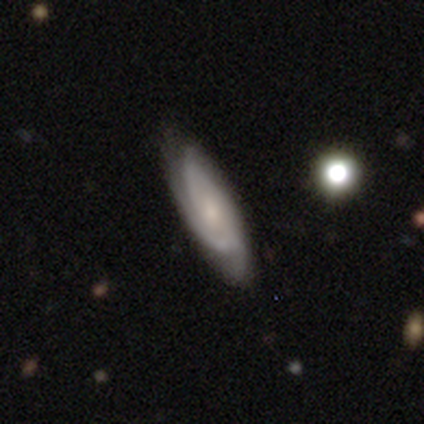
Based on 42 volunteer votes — smooth_or_featured: featured or disk (p=0.79) [alt: smooth p=0.14]
disk_edge_on: no (p=0.88) [alt: yes p=0.12]
bar: no (p=0.66) [alt: weak p=0.31]
has_spiral_arms: yes (p=0.97) [alt: no p=0.03]
spiral_winding: tight (p=0.64) [alt: medium p=0.36]
spiral_arm_count: 2 (p=0.54) [alt: can't tell p=0.29]
bulge_size: small (p=0.52) [alt: moderate p=0.28]
merging: none (p=0.82) [alt: minor disturbance p=0.15]